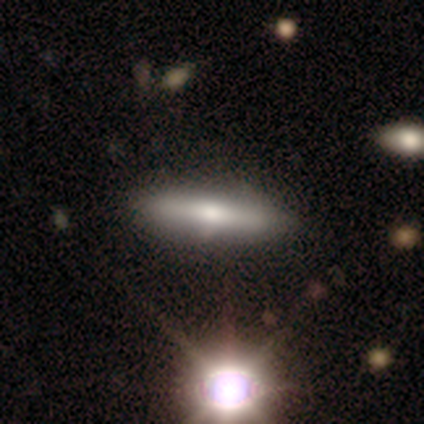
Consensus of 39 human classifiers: A smooth galaxy with no disk features (49%) that is cigar-shaped (95%). Merging: none (66%).